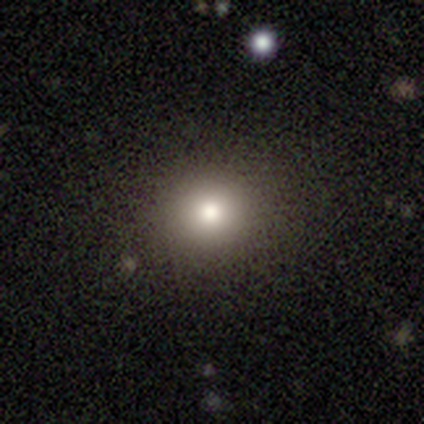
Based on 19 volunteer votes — smooth 79%, featured or disk 16%, star or artifact 5%. Down the decision tree: how rounded — round (80%); merging — none (89%).